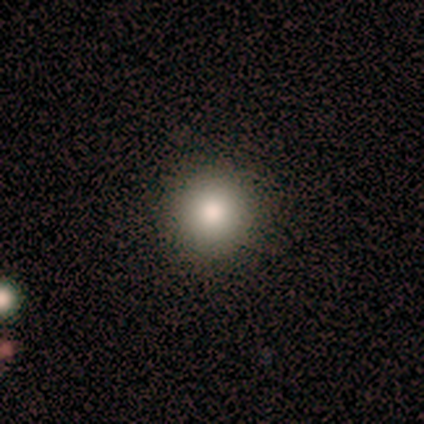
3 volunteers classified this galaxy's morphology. smooth_or_featured: smooth (p=1.00)
how_rounded: round (p=1.00)
merging: none (p=1.00)